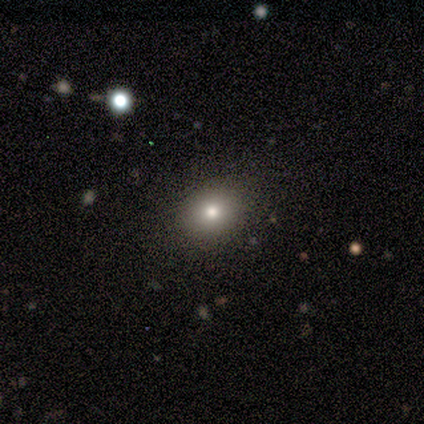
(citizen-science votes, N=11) Q: Smooth or featured?
A: smooth (82%); runner-up: featured or disk (9%)
Q: How rounded?
A: round (56%); runner-up: in between (44%)
Q: Merging?
A: none (80%); runner-up: minor disturbance (20%)